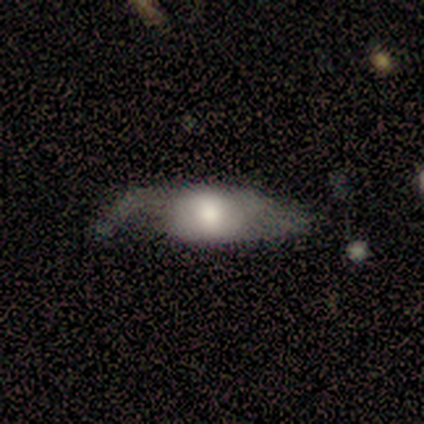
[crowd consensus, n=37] Smooth or featured?
  - smooth: 51% *
  - featured or disk: 38%
  - star or artifact: 11%
How rounded?
  - in between: 68% *
  - cigar-shaped: 21%
  - round: 11%
Merging?
  - none: 36% * (tied)
  - minor disturbance: 36% * (tied)
  - major disturbance: 27%
  - merger: 0%